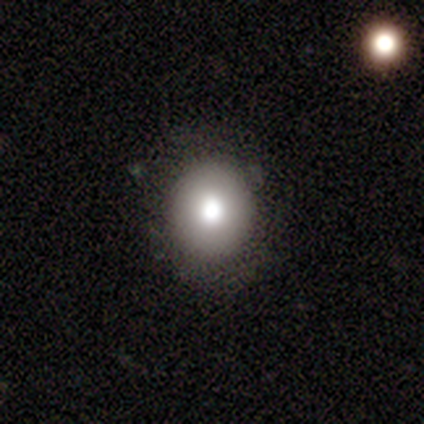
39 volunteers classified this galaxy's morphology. smooth-or-featured: smooth: 85% | featured or disk: 8% | star or artifact: 8%
  how-rounded: round: 79% | in between: 21% | cigar-shaped: 0%
  merging: none: 75% | minor disturbance: 19% | major disturbance: 6% | merger: 0%